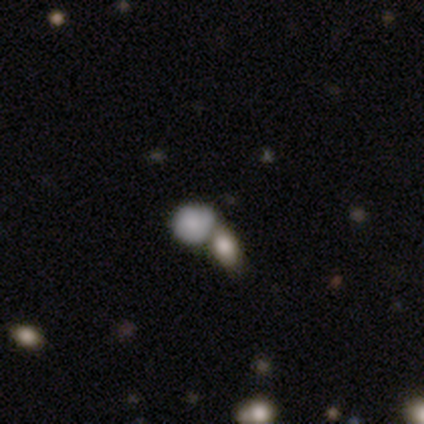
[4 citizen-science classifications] Smooth or featured: smooth — 75% (featured or disk — 25%)
How rounded: round — 100%
Merging: minor disturbance — 50% (tied with merger — 50%)